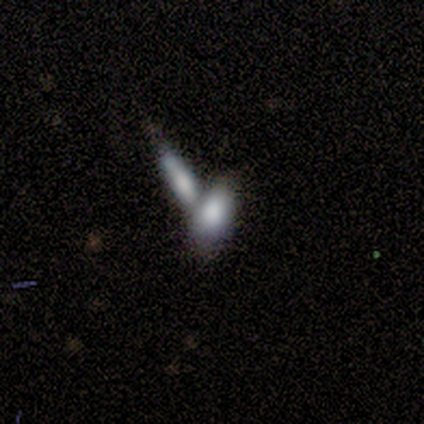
Q: Smooth or featured?
A: smooth (82%); runner-up: star or artifact (18%)
Q: How rounded?
A: in between (89%); runner-up: cigar-shaped (11%)
Q: Merging?
A: merger (100%)